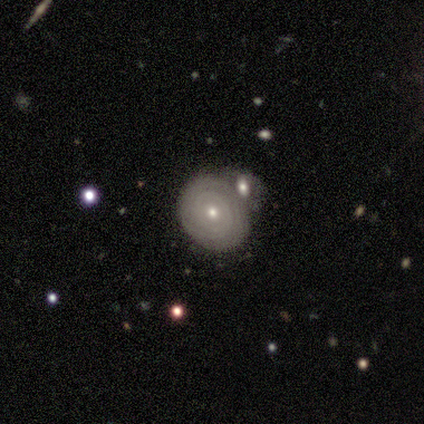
smooth-or-featured: featured or disk: 78% | smooth: 22% | star or artifact: 0%
  disk-edge-on: no: 100% | yes: 0%
    bar: no: 100% | strong: 0% | weak: 0%
    has-spiral-arms: yes: 86% | no: 14%
      spiral-winding: tight: 100% | medium: 0% | loose: 0%
      spiral-arm-count: can't tell: 50% | 2: 33% | more than 4: 17% | 1: 0% | 3: 0% | 4: 0%
    bulge-size: small: 86% | moderate: 14% | dominant: 0% | large: 0% | none: 0%
  merging: none: 33% (tied) | minor disturbance: 33% (tied) | merger: 22% | major disturbance: 11%